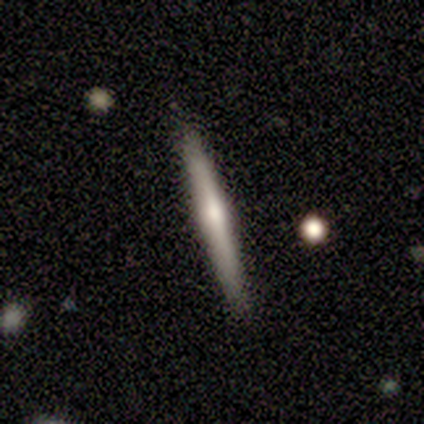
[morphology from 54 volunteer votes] Smooth or featured? featured or disk (59%)
Edge-on disk? yes (100%)
Edge-on bulge? rounded (69%)
Merging? none (91%)